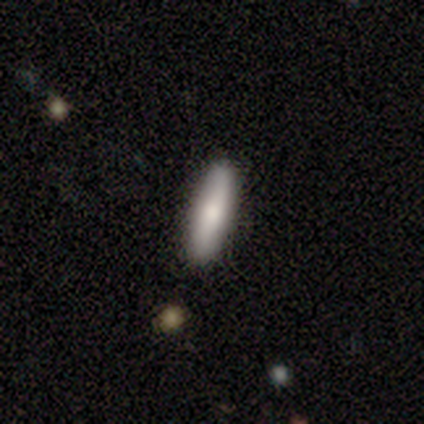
Smooth or featured? 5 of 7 (71%) said smooth. How rounded? 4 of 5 (80%) said cigar-shaped. Merging? 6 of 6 (100%) said none.